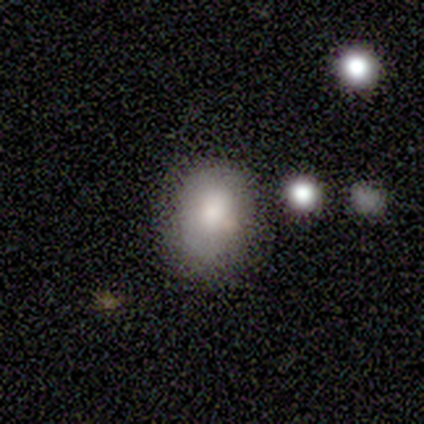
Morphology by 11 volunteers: Smooth or featured?
  - smooth: 73% *
  - star or artifact: 27%
  - featured or disk: 0%
How rounded?
  - round: 50% * (tied)
  - in between: 50% * (tied)
  - cigar-shaped: 0%
Merging?
  - none: 50% *
  - minor disturbance: 38%
  - merger: 12%
  - major disturbance: 0%